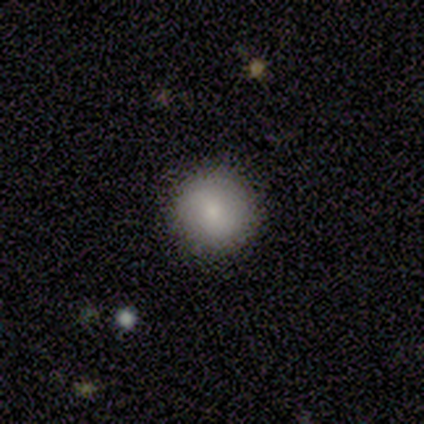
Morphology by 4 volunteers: Smooth or featured? 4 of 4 (100%) said smooth. How rounded? 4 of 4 (100%) said round. Merging? 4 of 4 (100%) said none.